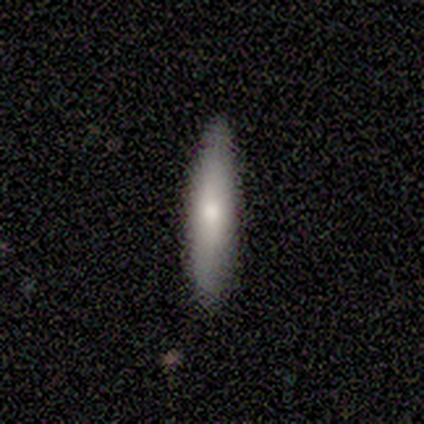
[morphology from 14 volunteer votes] A smooth galaxy with no disk features (64%) that is cigar-shaped (100%). Merging: none (64%).